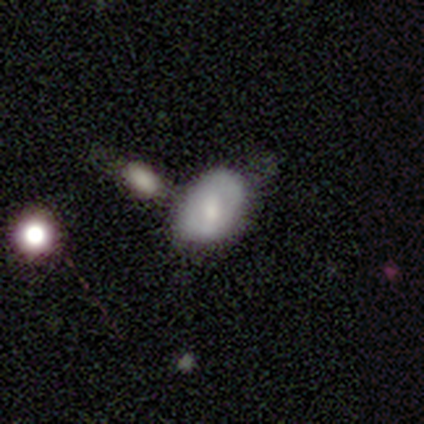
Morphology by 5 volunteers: Smooth or featured? smooth (60%)
How rounded? in between (100%)
Merging? none (25%, tied with minor disturbance, major disturbance and merger)